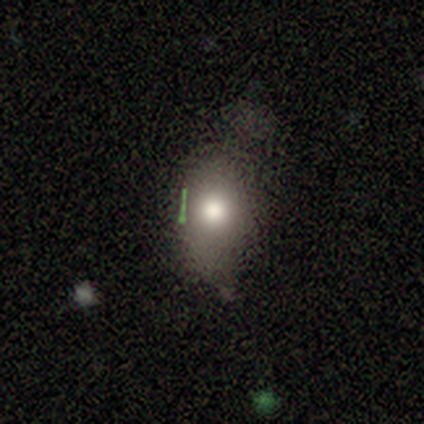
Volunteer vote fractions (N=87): Smooth or featured? smooth (62%)
How rounded? in between (81%)
Merging? none (59%)